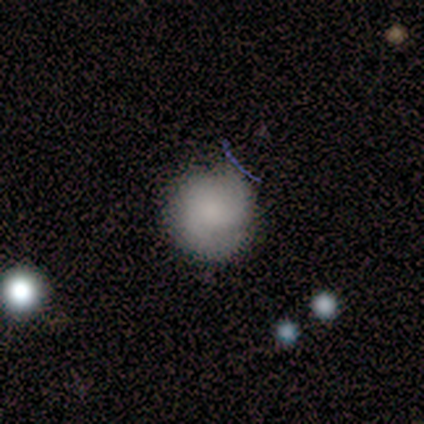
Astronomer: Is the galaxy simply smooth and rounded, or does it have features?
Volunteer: smooth — 80%.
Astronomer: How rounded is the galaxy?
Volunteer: round — 100%.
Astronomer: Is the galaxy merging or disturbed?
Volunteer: none — 80%.